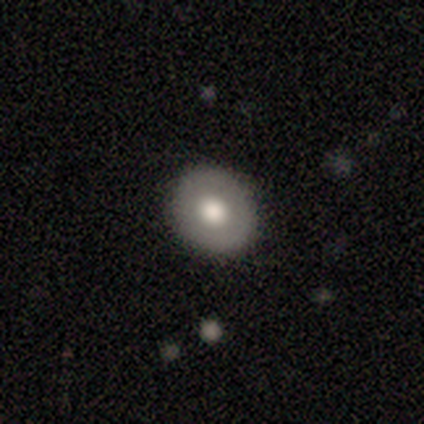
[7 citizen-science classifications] Smooth or featured? smooth (57%)
How rounded? in between (75%)
Merging? none (86%)